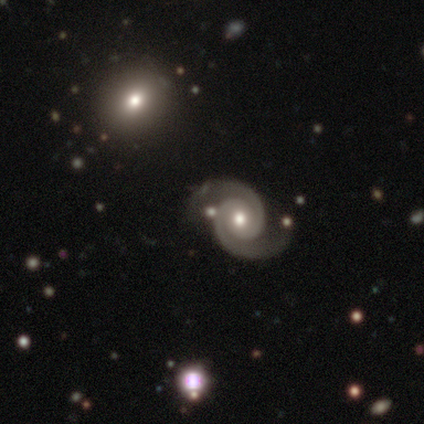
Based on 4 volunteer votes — smooth_or_featured: featured or disk (p=1.00)
disk_edge_on: no (p=1.00)
bar: no (p=1.00)
has_spiral_arms: yes (p=1.00)
spiral_winding: medium (p=0.75) [alt: tight p=0.25]
spiral_arm_count: 2 (p=1.00)
bulge_size: moderate (p=0.75) [alt: small p=0.25]
merging: none (p=1.00)